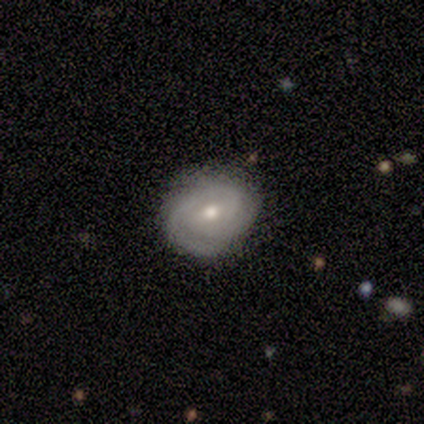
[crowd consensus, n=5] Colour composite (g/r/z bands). It shows a featured or disk galaxy (80%) with a weak bar (75%), 2 (50%) tight (100%) spiral arms (100%) and a moderate central bulge (75%). Merging: none (80%).